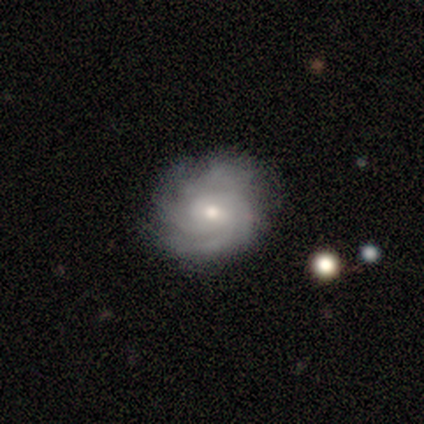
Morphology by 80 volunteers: Smooth or featured?
  - featured or disk: 88% *
  - smooth: 11%
  - star or artifact: 1%
Edge-on disk?
  - no: 100% *
  - yes: 0%
Bar?
  - no: 61% *
  - weak: 33%
  - strong: 6%
Spiral arms?
  - yes: 97% *
  - no: 3%
Spiral winding?
  - tight: 59% *
  - medium: 31%
  - loose: 10%
Spiral arm count?
  - can't tell: 43% *
  - 4: 25%
  - 3: 21%
  - 2: 6%
  - more than 4: 4%
  - 1: 1%
Bulge size?
  - moderate: 51% *
  - small: 43%
  - large: 3%
  - none: 3%
  - dominant: 0%
Merging?
  - none: 46% *
  - minor disturbance: 8%
  - major disturbance: 1%
  - merger: 0%